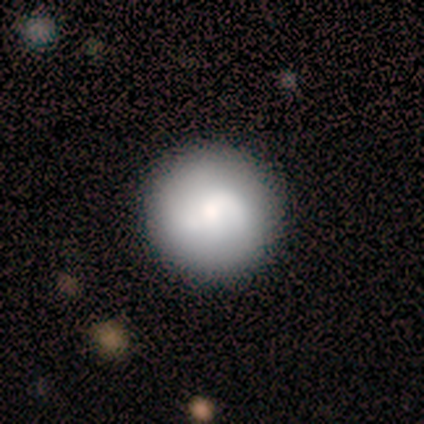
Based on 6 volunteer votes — Smooth or featured? smooth (83%)
How rounded? round (80%)
Merging? none (100%)